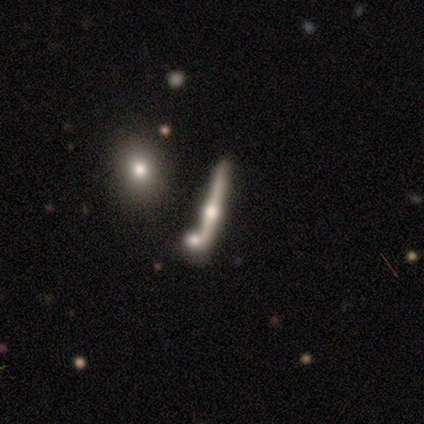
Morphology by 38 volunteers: This appears to be a featured or disk galaxy (74%) viewed edge-on (89%) with a rounded central bulge (100%). Merging: none (68%).